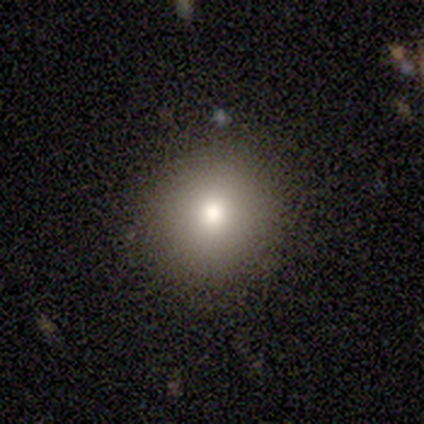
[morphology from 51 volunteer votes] smooth 86%, featured or disk 10%, star or artifact 4%. Down the decision tree: how rounded — round (82%); merging — none (90%).